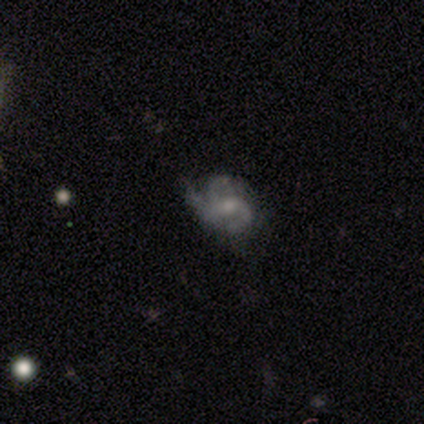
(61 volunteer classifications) Smooth or featured?
  - featured or disk: 84% *
  - smooth: 10%
  - star or artifact: 7%
Edge-on disk?
  - no: 98% *
  - yes: 2%
Bar?
  - no: 50% *
  - weak: 38%
  - strong: 12%
Spiral arms?
  - yes: 94% *
  - no: 6%
Spiral winding?
  - medium: 53% *
  - loose: 28%
  - tight: 19%
Spiral arm count?
  - 3: 72% *
  - 2: 17%
  - 1: 4%
  - can't tell: 4%
  - 4: 2%
  - more than 4: 0%
Bulge size?
  - small: 44% *
  - moderate: 42%
  - none: 10%
  - large: 4%
  - dominant: 0%
Merging?
  - none: 54% *
  - minor disturbance: 28%
  - major disturbance: 16%
  - merger: 2%